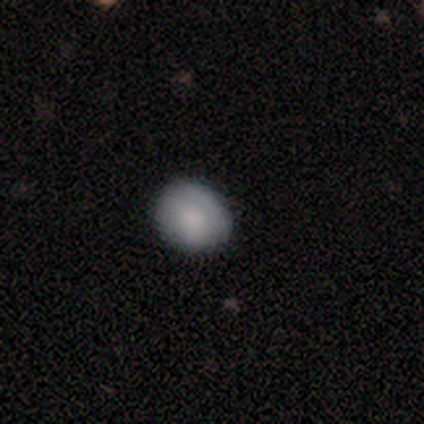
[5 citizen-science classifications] smooth 80%, featured or disk 20%, star or artifact 0%. Down the decision tree: how rounded — round (75%); merging — none (80%).